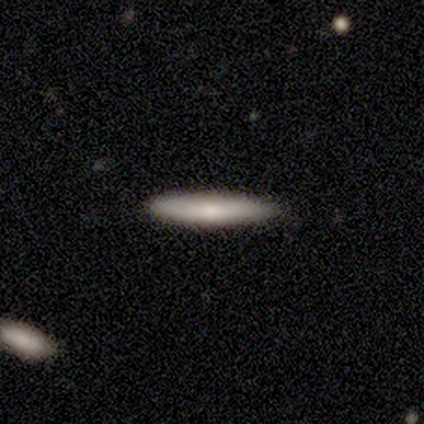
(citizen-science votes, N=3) Smooth or featured? smooth (67%)
How rounded? cigar-shaped (100%)
Merging? none (100%)